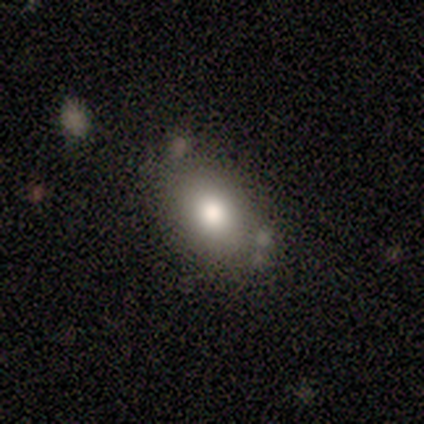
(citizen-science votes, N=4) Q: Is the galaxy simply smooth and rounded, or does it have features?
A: smooth — 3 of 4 (75%).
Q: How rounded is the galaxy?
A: in between — 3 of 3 (100%).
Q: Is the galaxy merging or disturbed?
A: none — 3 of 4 (75%).